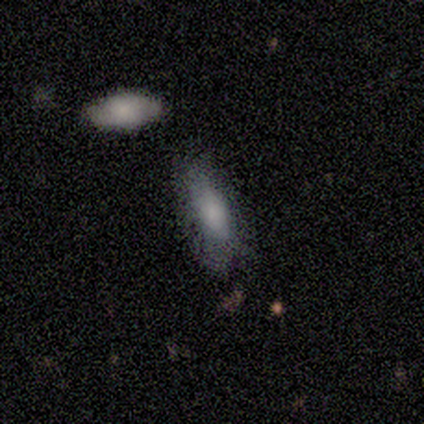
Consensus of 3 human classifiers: smooth-or-featured: smooth: 67% | star or artifact: 33% | featured or disk: 0%
  how-rounded: in between: 50% (tied) | cigar-shaped: 50% (tied) | round: 0%
  merging: major disturbance: 100% | none: 0% | minor disturbance: 0% | merger: 0%